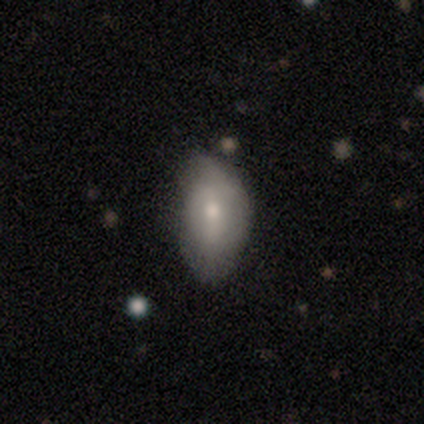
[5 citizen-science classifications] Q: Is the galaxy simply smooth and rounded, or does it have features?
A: smooth — 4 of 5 (80%).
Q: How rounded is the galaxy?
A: in between — 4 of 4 (100%).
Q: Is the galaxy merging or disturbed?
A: minor disturbance — 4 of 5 (80%).